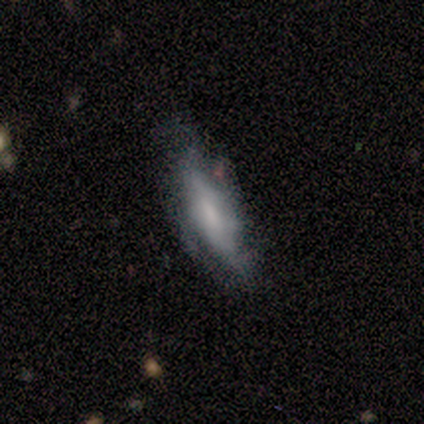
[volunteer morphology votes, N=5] featured or disk 80%, smooth 20%, star or artifact 0%. Down the decision tree: edge-on disk — no (100%); bar — weak (50%); spiral arms — yes (50%, tied with no); spiral arm count — 3 (50%, tied with can't tell); spiral winding — medium (50%, tied with loose); bulge size — moderate (50%); merging — none (60%).